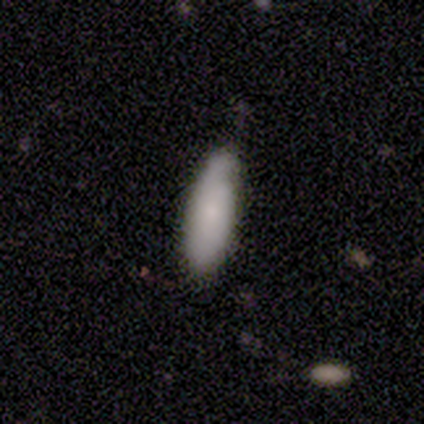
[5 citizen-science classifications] Smooth or featured? 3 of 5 (60%) said smooth. How rounded? 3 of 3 (100%) said in between. Merging? 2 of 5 (40%, tied with major disturbance) said none.